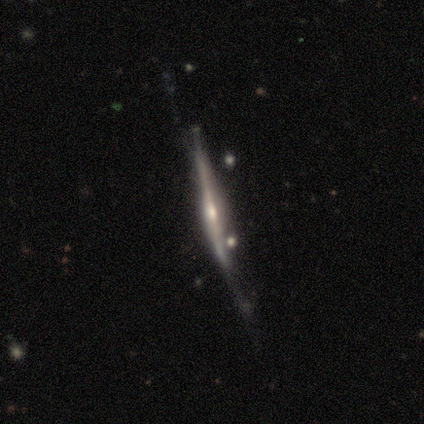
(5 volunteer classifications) A featured or disk galaxy (100%) viewed edge-on (100%) with a rounded central bulge (100%).

Vote fractions:
- Smooth or featured? featured or disk: 100% / smooth: 0% / star or artifact: 0%
- Edge-on disk? yes: 100% / no: 0%
- Edge-on bulge? rounded: 100% / boxy: 0% / none: 0%
- Merging? minor disturbance: 60% / none: 20% / major disturbance: 20% / merger: 0%